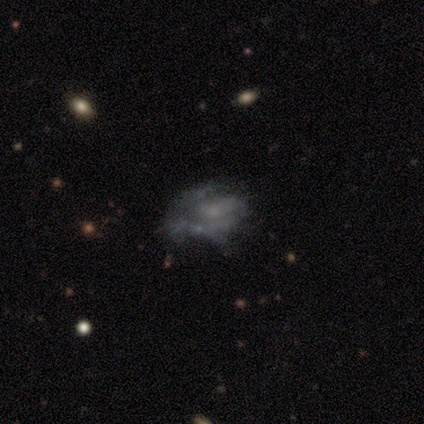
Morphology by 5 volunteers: Overall: featured or disk (80%). Edge-on disk: no (100%). Bar: no (100%). Spiral arms: yes (100%). Spiral arm count: 1 (75%). Spiral winding: tight (75%). Bulge size: none (75%). Merging: none (60%; minor disturbance 20%).